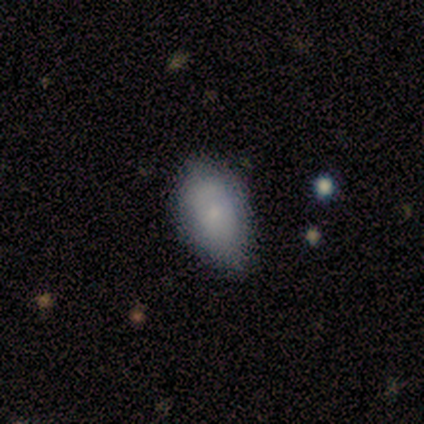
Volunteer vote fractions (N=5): Smooth or featured? smooth (60%)
How rounded? in between (100%)
Merging? minor disturbance (50%)